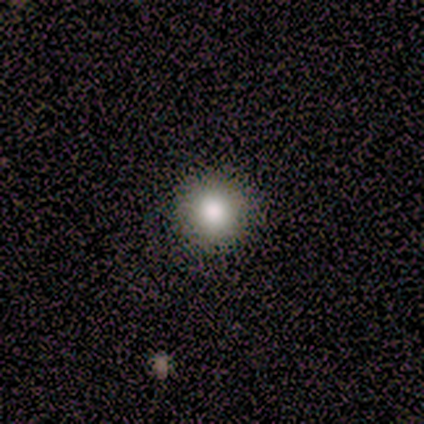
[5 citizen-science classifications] Smooth or featured?
  - smooth: 80% *
  - star or artifact: 20%
  - featured or disk: 0%
How rounded?
  - round: 100% *
  - in between: 0%
  - cigar-shaped: 0%
Merging?
  - none: 100% *
  - minor disturbance: 0%
  - major disturbance: 0%
  - merger: 0%